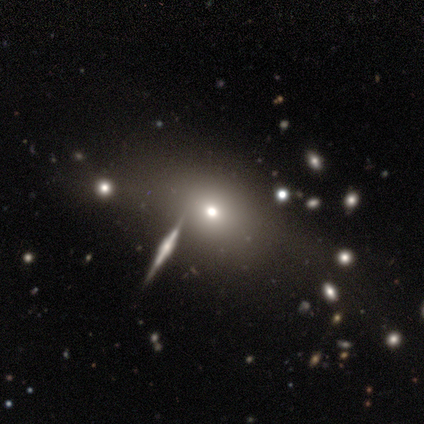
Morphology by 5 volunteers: Volunteers were most divided on "smooth or featured": smooth: 60%, featured or disk: 20%, star or artifact: 20%. More confident: how rounded — in between (100%); merging — none (100%).